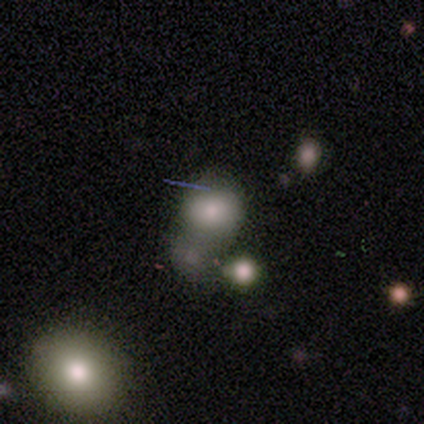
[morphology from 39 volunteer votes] Smooth or featured? 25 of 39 (64%) said smooth. How rounded? 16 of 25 (64%) said round. Merging? 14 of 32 (44%) said none.